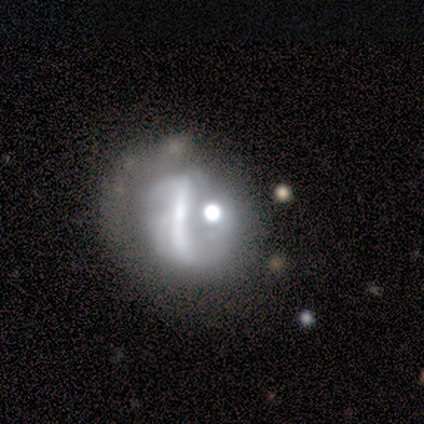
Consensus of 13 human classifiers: smooth-or-featured: featured or disk: 62% | star or artifact: 23% | smooth: 15%
  disk-edge-on: no: 100% | yes: 0%
    bar: no: 62% | strong: 38% | weak: 0%
    has-spiral-arms: no: 75% | yes: 25%
    bulge-size: small: 38% | large: 25% | dominant: 12% | moderate: 12% | none: 12%
  merging: merger: 50% | none: 20% | minor disturbance: 20% | major disturbance: 10%